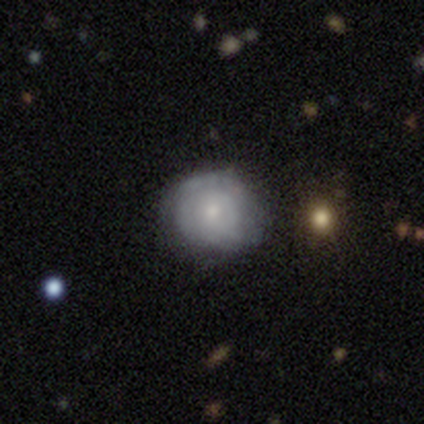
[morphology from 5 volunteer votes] Smooth or featured?
  - smooth: 60% *
  - featured or disk: 40%
  - star or artifact: 0%
How rounded?
  - round: 100% *
  - in between: 0%
  - cigar-shaped: 0%
Merging?
  - none: 80% *
  - minor disturbance: 20%
  - major disturbance: 0%
  - merger: 0%